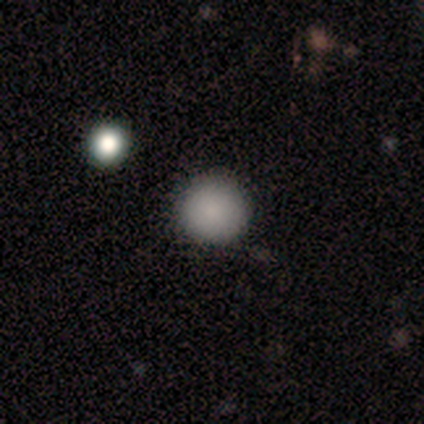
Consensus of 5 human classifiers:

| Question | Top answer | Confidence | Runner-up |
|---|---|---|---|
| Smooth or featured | smooth | 100% | — |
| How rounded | round | 100% | — |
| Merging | none | 80% | minor disturbance (20%) |